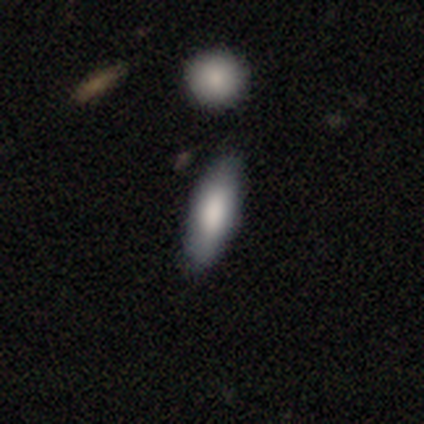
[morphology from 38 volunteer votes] A smooth galaxy with no disk features (66%) that is in between round and cigar-shaped (52%). Merging: none (81%).